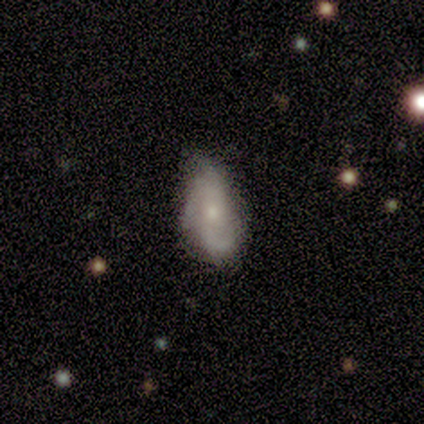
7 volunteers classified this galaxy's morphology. Overall: featured or disk (57%; smooth 43%). Edge-on disk: no (100%). Bar: weak (50%, tied with no). Spiral arms: yes (75%). Spiral arm count: 2 (33%, tied with 3 and can't tell). Spiral winding: tight (67%; loose 33%). Bulge size: moderate (50%, tied with small). Merging: none (57%; minor disturbance 43%).